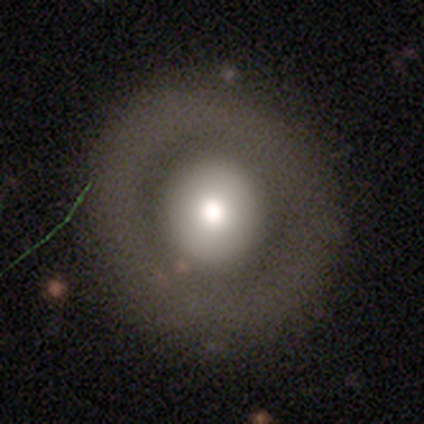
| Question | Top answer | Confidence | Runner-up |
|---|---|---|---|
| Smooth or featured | smooth | 75% | star or artifact (25%) |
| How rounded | round | 100% | — |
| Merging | none | 100% | — |